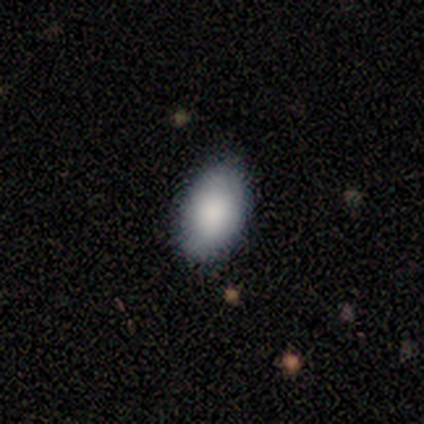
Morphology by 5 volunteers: This appears to be a smooth galaxy with no disk features (80%) that is in between round and cigar-shaped (100%). Merging: none (75%).